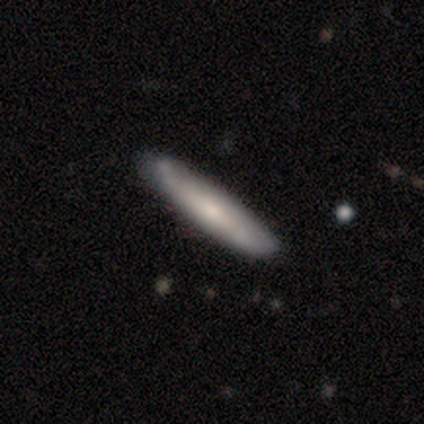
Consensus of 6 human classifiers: smooth_or_featured: smooth (p=0.67) [alt: featured or disk p=0.33]
how_rounded: cigar-shaped (p=1.00)
merging: none (p=0.67) [alt: minor disturbance p=0.17]